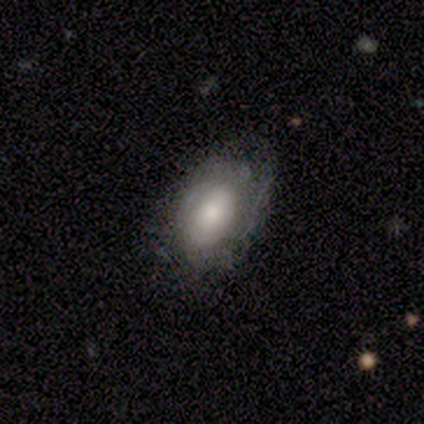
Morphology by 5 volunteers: Smooth or featured? 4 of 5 (80%) said smooth. How rounded? 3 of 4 (75%) said in between. Merging? 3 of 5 (60%) said none.